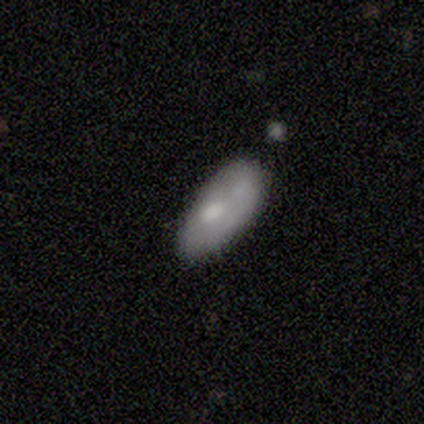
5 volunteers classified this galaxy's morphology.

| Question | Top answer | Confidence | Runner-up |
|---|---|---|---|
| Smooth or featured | smooth | 80% | featured or disk (20%) |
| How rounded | in between | 75% | cigar-shaped (25%) |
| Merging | none | 40% | minor disturbance (20%) |